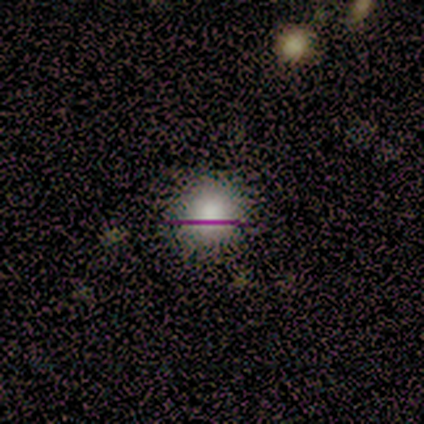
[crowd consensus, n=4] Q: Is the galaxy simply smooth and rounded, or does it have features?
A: smooth — 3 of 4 (75%).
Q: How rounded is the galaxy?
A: round — 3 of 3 (100%).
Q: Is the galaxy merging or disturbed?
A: none — 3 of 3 (100%).